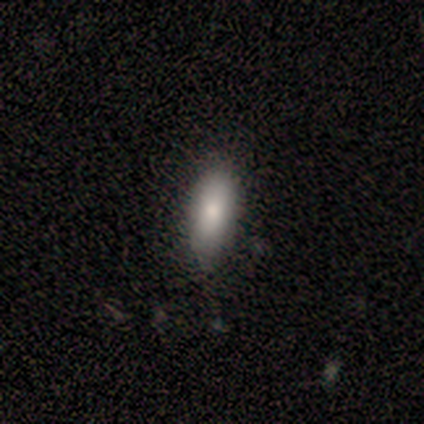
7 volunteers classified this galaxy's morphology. Smooth or featured?
  - smooth: 86% *
  - star or artifact: 14%
  - featured or disk: 0%
How rounded?
  - in between: 67% *
  - cigar-shaped: 33%
  - round: 0%
Merging?
  - none: 100% *
  - minor disturbance: 0%
  - major disturbance: 0%
  - merger: 0%